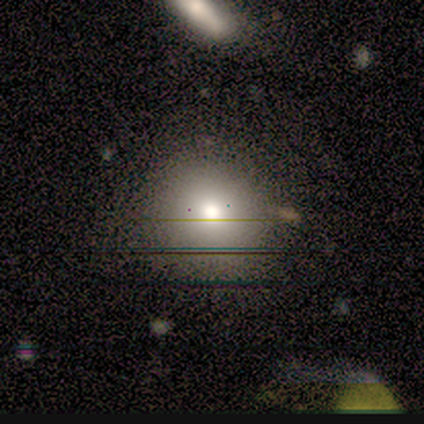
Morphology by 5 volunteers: This appears to be a smooth galaxy with no disk features (80%) that is round (100%). Merging: none (60%).